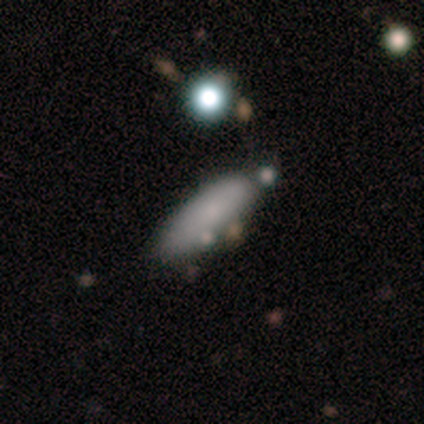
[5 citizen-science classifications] Overall: smooth (80%). How rounded: in between (50%, tied with cigar-shaped). Merging: none (80%).